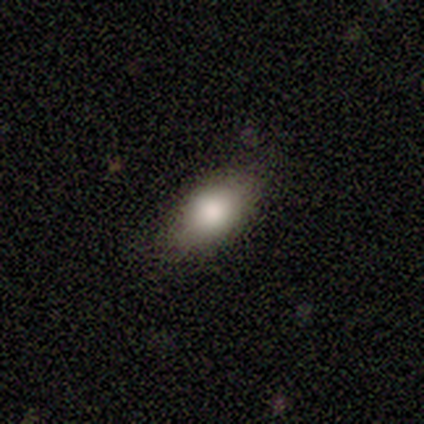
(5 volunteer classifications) smooth 80%, featured or disk 20%, star or artifact 0%. Down the decision tree: how rounded — in between (100%); merging — none (80%).